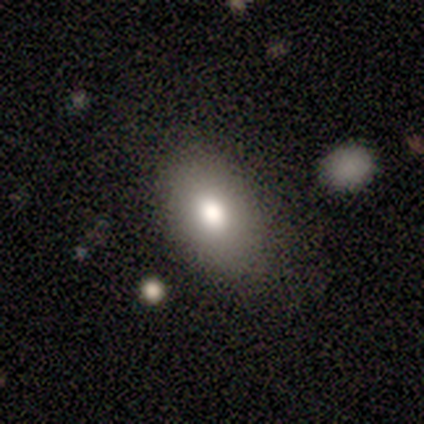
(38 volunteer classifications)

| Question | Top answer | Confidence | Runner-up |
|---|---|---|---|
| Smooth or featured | smooth | 68% | featured or disk (16%) |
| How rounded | in between | 92% | round (8%) |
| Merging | none | 78% | minor disturbance (16%) |